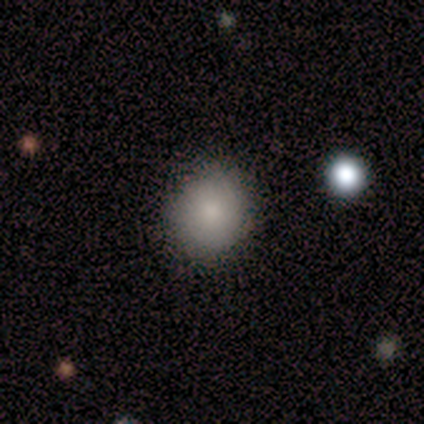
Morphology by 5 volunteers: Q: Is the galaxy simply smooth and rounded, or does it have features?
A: smooth — 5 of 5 (100%).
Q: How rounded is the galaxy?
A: round — 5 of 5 (100%).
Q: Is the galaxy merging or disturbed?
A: none — 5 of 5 (100%).